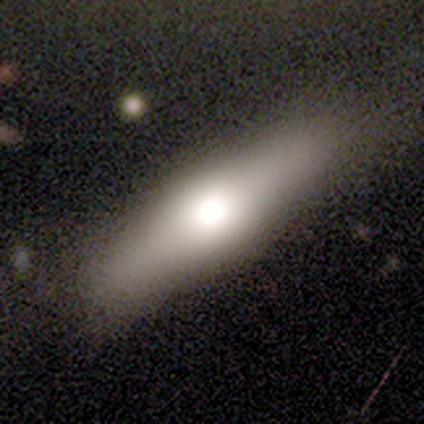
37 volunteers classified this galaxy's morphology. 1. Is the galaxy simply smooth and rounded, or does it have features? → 68% smooth, 32% featured or disk, 0% star or artifact.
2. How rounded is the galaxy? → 64% cigar-shaped, 32% in between, 4% round.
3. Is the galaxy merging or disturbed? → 92% none, 5% minor disturbance, 3% merger, 0% major disturbance.